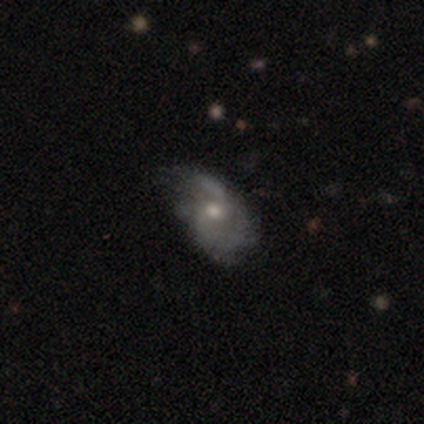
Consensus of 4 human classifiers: Smooth or featured? 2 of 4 (50%) said featured or disk. Edge-on disk? 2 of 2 (100%) said no. Bar? 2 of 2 (100%) said no. Spiral arms? 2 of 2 (100%) said yes. Spiral winding? 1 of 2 (50%, tied with loose) said medium. Spiral arm count? 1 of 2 (50%, tied with can't tell) said 2. Bulge size? 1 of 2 (50%, tied with none) said moderate. Merging? 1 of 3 (33%, tied with minor disturbance and major disturbance) said none.